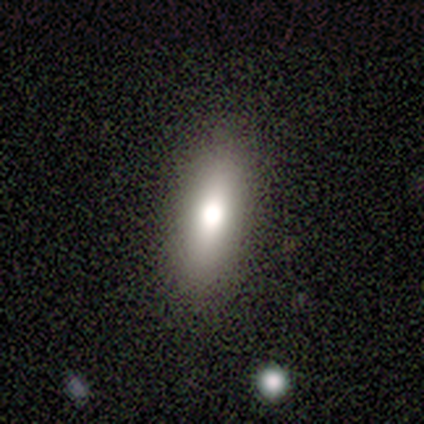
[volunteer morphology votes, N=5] Q: Smooth or featured?
A: smooth (80%); runner-up: star or artifact (20%)
Q: How rounded?
A: cigar-shaped (75%); runner-up: in between (25%)
Q: Merging?
A: none (100%)